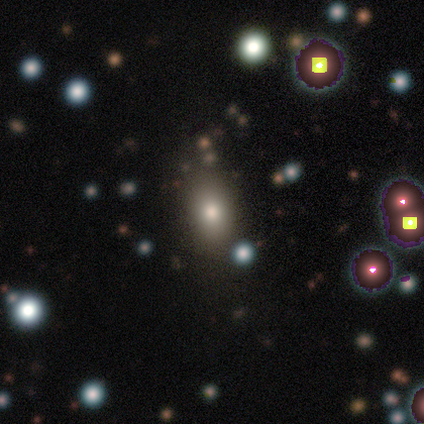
A featured or disk galaxy (50%) with no bar (67%), no spiral arms (100%) and a dominant central bulge (33%, tied with moderate and small). Merging: none (100%).